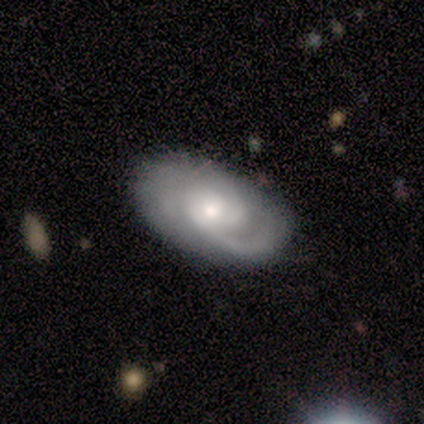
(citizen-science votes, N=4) smooth-or-featured: featured or disk: 100% | smooth: 0% | star or artifact: 0%
  disk-edge-on: no: 100% | yes: 0%
    bar: no: 100% | strong: 0% | weak: 0%
    has-spiral-arms: yes: 100% | no: 0%
      spiral-winding: tight: 75% | medium: 25% | loose: 0%
      spiral-arm-count: 2: 75% | can't tell: 25% | 1: 0% | 3: 0% | 4: 0% | more than 4: 0%
    bulge-size: moderate: 75% | small: 25% | dominant: 0% | large: 0% | none: 0%
  merging: none: 75% | minor disturbance: 25% | major disturbance: 0% | merger: 0%